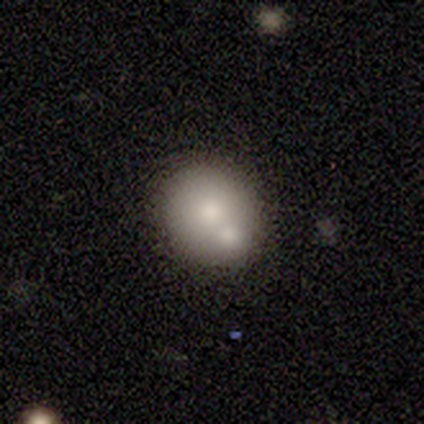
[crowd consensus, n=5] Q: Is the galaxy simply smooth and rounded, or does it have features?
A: smooth — 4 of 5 (80%).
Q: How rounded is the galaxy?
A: round — 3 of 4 (75%).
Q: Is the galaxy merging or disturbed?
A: none — 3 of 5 (60%).